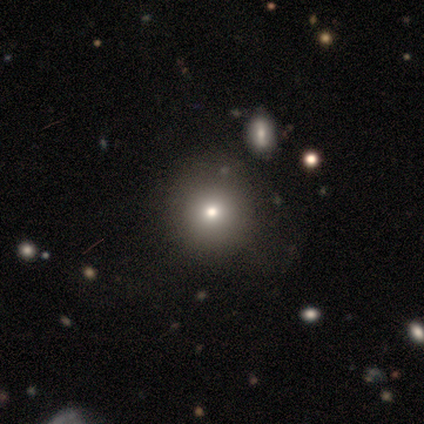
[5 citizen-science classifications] smooth-or-featured: smooth: 60% | featured or disk: 20% | star or artifact: 20%
  how-rounded: round: 100% | in between: 0% | cigar-shaped: 0%
  merging: none: 100% | minor disturbance: 0% | major disturbance: 0% | merger: 0%